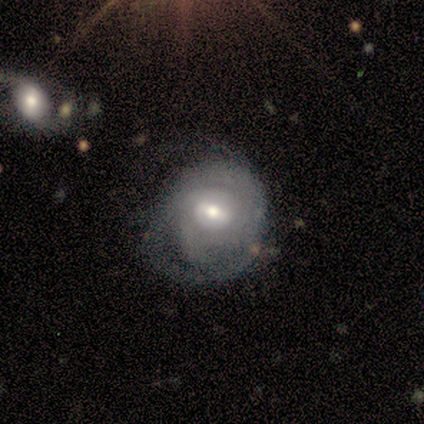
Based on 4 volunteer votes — Smooth or featured?
  - featured or disk: 50% *
  - smooth: 25%
  - star or artifact: 25%
Edge-on disk?
  - no: 100% *
  - yes: 0%
Bar?
  - weak: 50% * (tied)
  - no: 50% * (tied)
  - strong: 0%
Spiral arms?
  - yes: 100% *
  - no: 0%
Spiral winding?
  - tight: 100% *
  - medium: 0%
  - loose: 0%
Spiral arm count?
  - 2: 50% * (tied)
  - can't tell: 50% * (tied)
  - 1: 0%
  - 3: 0%
  - 4: 0%
  - more than 4: 0%
Bulge size?
  - moderate: 50% * (tied)
  - small: 50% * (tied)
  - dominant: 0%
  - large: 0%
  - none: 0%
Merging?
  - minor disturbance: 100% *
  - none: 0%
  - major disturbance: 0%
  - merger: 0%